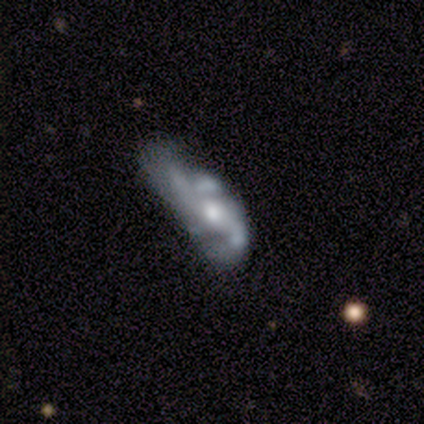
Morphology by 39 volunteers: Volunteers were most divided on "spiral winding" (2-way tie): tight: 35%, loose: 35%, medium: 30%. Remaining: edge-on disk — no (100%); bar — no (83%); smooth or featured — featured or disk (74%); spiral arms — yes (69%); bulge size — moderate (59%); spiral arm count — 2 (40%); merging — major disturbance (34%).